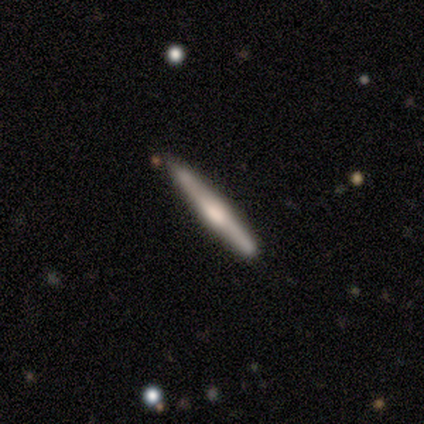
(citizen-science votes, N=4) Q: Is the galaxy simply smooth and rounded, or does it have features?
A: featured or disk — 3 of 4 (75%).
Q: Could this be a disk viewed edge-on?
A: yes — 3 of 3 (100%).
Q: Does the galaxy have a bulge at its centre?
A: rounded — 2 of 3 (67%).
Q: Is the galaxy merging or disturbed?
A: none — 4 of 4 (100%).